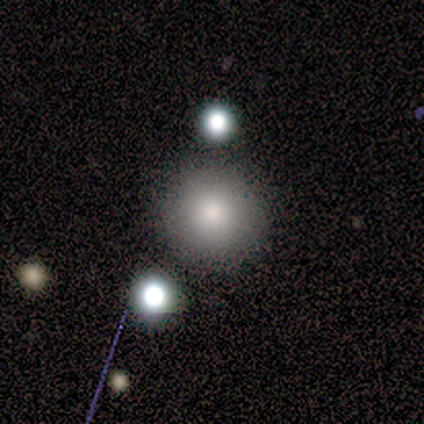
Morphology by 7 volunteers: Smooth or featured? 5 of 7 (71%) said smooth. How rounded? 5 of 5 (100%) said round. Merging? 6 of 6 (100%) said none.